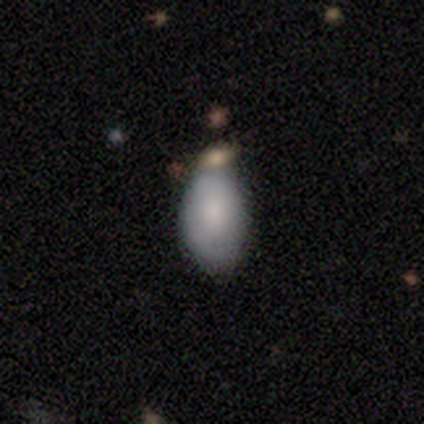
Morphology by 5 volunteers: This is clearly a smooth galaxy (80%). How rounded: clearly in between (100%). Merging: possibly none (50%).